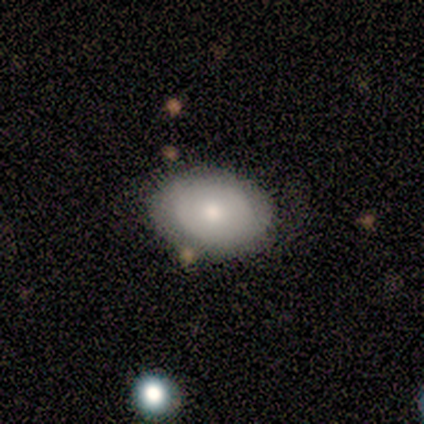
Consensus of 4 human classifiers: smooth_or_featured: featured or disk (p=0.50) [alt: smooth p=0.25]
disk_edge_on: no (p=1.00)
bar: weak (p=0.50) [tied with: no p=0.50]
has_spiral_arms: yes (p=0.50) [tied with: no p=0.50]
spiral_winding: medium (p=1.00)
spiral_arm_count: 1 (p=1.00)
bulge_size: moderate (p=1.00)
merging: none (p=0.67) [alt: minor disturbance p=0.33]